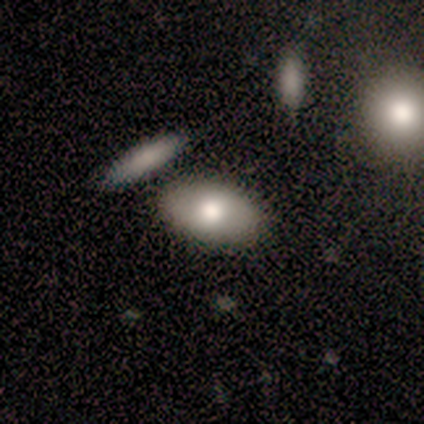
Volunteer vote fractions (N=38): smooth 87%, featured or disk 8%, star or artifact 5%. Down the decision tree: how rounded — in between (91%); merging — none (72%).